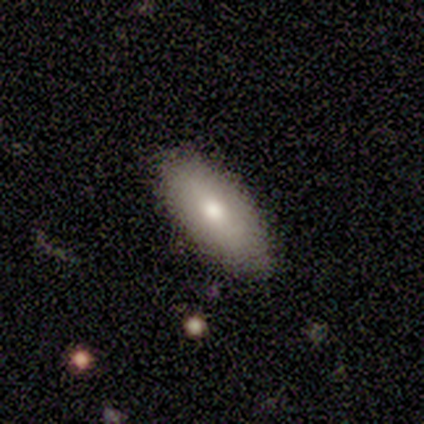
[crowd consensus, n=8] Smooth or featured? smooth (75%)
How rounded? in between (67%)
Merging? none (88%)